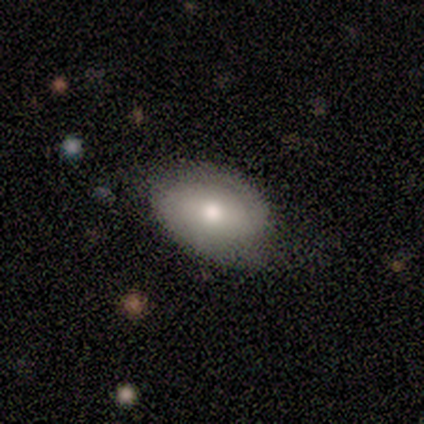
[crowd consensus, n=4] A smooth galaxy with no disk features (50%, tied with featured or disk) that is round (50%, tied with in between).

Vote fractions:
- Smooth or featured? smooth: 50% (tied) / featured or disk: 50% (tied) / star or artifact: 0%
- How rounded? round: 50% (tied) / in between: 50% (tied) / cigar-shaped: 0%
- Merging? none: 50% (tied) / minor disturbance: 50% (tied) / major disturbance: 0% / merger: 0%